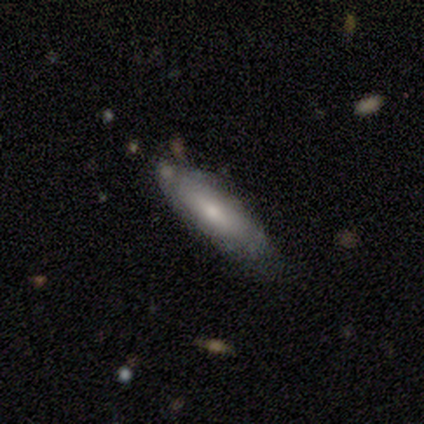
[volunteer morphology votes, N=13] Smooth or featured? 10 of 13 (77%) said smooth. How rounded? 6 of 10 (60%) said in between. Merging? 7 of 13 (54%) said none.